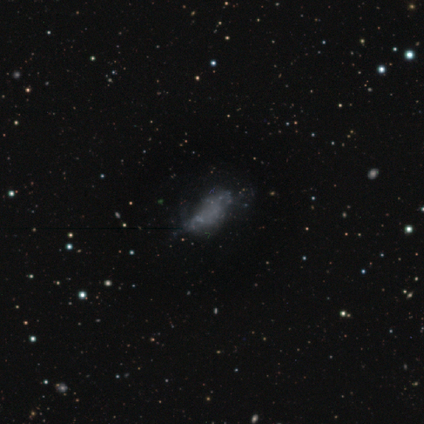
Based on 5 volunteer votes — A smooth galaxy with no disk features (40%, tied with featured or disk) that is in between round and cigar-shaped (100%). Merging: major disturbance (50%).